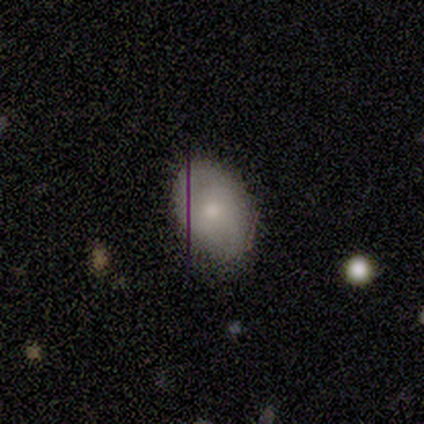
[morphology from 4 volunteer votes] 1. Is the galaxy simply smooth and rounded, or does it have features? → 50% smooth (tied), 50% star or artifact (tied), 0% featured or disk.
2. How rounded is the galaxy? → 100% in between, 0% round, 0% cigar-shaped.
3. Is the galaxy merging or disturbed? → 50% none (tied), 50% minor disturbance (tied), 0% major disturbance, 0% merger.